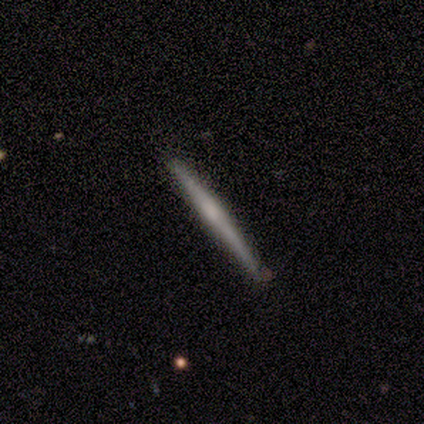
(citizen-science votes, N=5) Smooth or featured? smooth (40%, tied with featured or disk)
How rounded? cigar-shaped (100%)
Merging? none (100%)